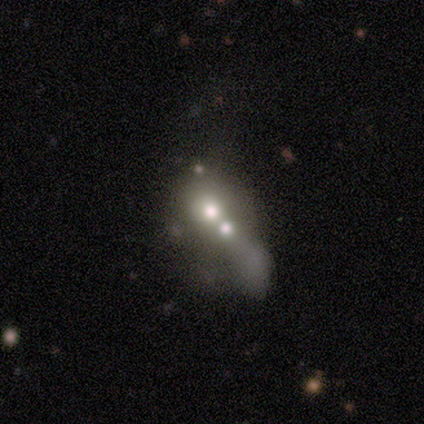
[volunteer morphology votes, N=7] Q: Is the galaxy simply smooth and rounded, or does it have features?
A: featured or disk — 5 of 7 (71%).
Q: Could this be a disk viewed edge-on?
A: no — 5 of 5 (100%).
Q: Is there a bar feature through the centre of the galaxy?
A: no — 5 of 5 (100%).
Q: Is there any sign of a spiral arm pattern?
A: no — 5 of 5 (100%).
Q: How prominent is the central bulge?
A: moderate — 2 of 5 (40%).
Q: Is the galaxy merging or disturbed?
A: merger — 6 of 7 (86%).